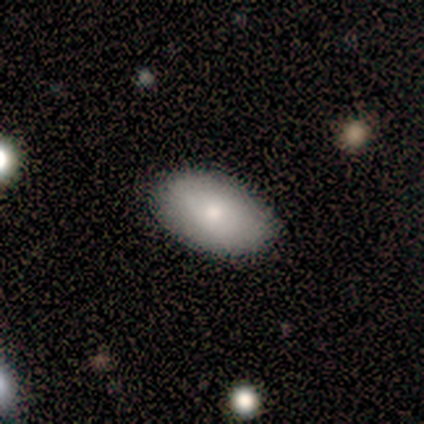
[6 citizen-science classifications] Q: Smooth or featured?
A: smooth (100%)
Q: How rounded?
A: in between (100%)
Q: Merging?
A: none (100%)